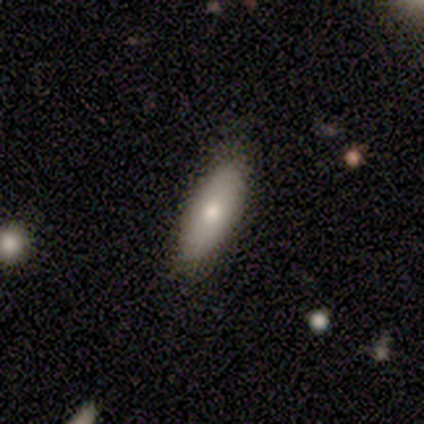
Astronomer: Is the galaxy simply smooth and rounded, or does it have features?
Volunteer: smooth — 80%.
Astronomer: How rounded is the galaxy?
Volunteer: in between — 100%.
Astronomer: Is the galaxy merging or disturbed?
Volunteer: none — 80%.